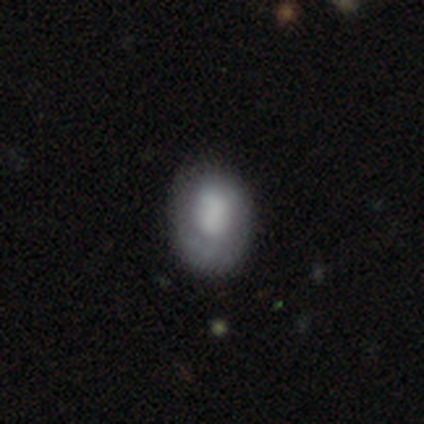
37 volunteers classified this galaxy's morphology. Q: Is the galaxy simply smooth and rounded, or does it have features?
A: smooth — 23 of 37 (62%).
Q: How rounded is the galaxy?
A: in between — 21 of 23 (91%).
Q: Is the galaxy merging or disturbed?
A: none — 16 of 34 (47%).